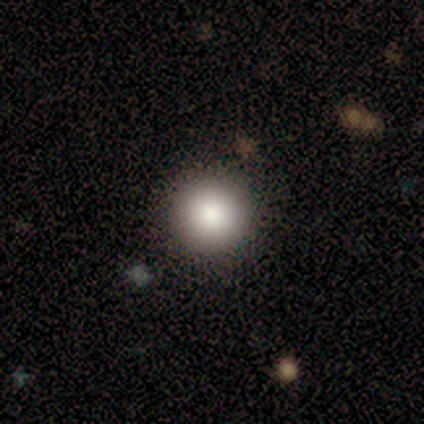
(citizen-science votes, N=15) Smooth or featured: smooth — 73% (featured or disk — 13%)
How rounded: round — 100%
Merging: none — 100%